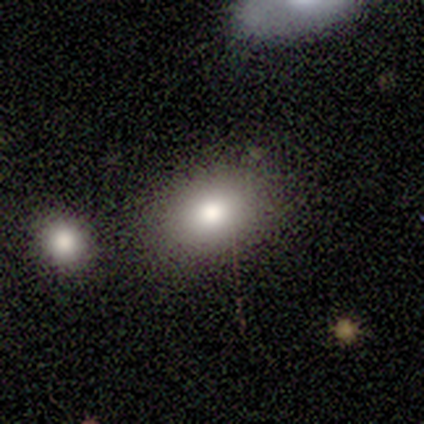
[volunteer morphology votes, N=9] This appears to be a smooth galaxy with no disk features (89%) that is in between round and cigar-shaped (62%). Merging: none (50%, tied with minor disturbance).